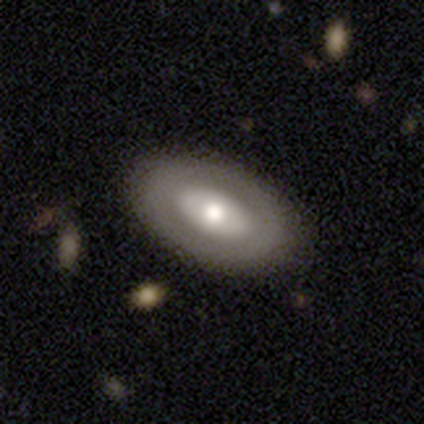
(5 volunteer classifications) smooth-or-featured: featured or disk: 80% | smooth: 20% | star or artifact: 0%
  disk-edge-on: no: 75% | yes: 25%
    bar: no: 67% | strong: 33% | weak: 0%
    has-spiral-arms: no: 100% | yes: 0%
    bulge-size: moderate: 100% | dominant: 0% | large: 0% | small: 0% | none: 0%
  merging: none: 100% | minor disturbance: 0% | major disturbance: 0% | merger: 0%